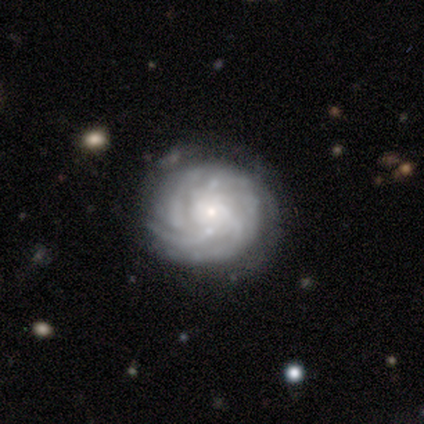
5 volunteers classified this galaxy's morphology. Volunteers were most divided on "bar": no: 67%, weak: 33%, strong: 0%. More confident: spiral arms — yes (100%); bulge size — small (100%); smooth or featured — featured or disk (80%); merging — none (80%); edge-on disk — no (75%); spiral winding — tight (67%); spiral arm count — 4 (67%).